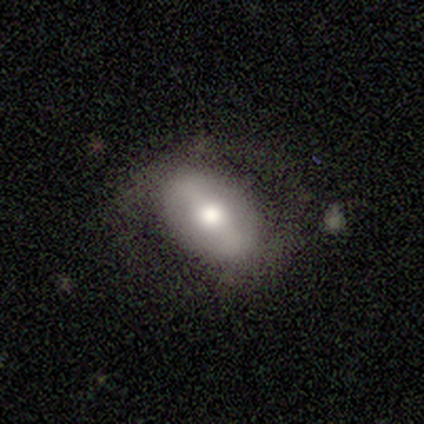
smooth_or_featured: smooth (p=0.80) [alt: featured or disk p=0.20]
how_rounded: in between (p=1.00)
merging: none (p=0.80) [alt: minor disturbance p=0.20]